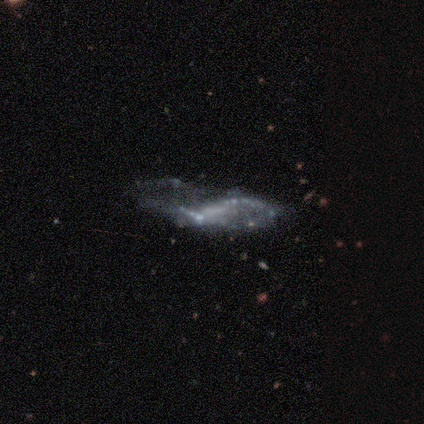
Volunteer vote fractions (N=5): Smooth or featured? featured or disk (80%)
Edge-on disk? no (100%)
Bar? no (50%)
Spiral arms? yes (50%, tied with no)
Spiral winding? tight (50%, tied with loose)
Spiral arm count? 2 (50%, tied with can't tell)
Bulge size? none (75%)
Merging? none (50%, tied with minor disturbance)